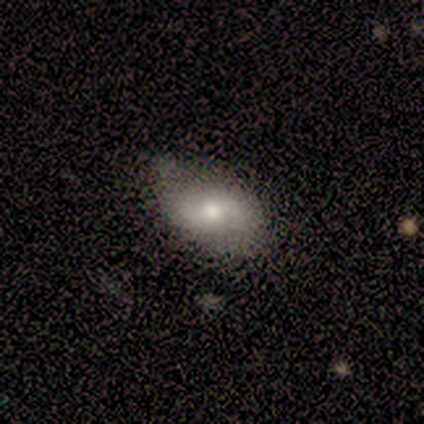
Smooth or featured?
  - featured or disk: 57% *
  - smooth: 43%
  - star or artifact: 0%
Edge-on disk?
  - no: 75% *
  - yes: 25%
Bar?
  - no: 100% *
  - strong: 0%
  - weak: 0%
Spiral arms?
  - yes: 67% *
  - no: 33%
Spiral winding?
  - medium: 50% * (tied)
  - loose: 50% * (tied)
  - tight: 0%
Spiral arm count?
  - 2: 100% *
  - 1: 0%
  - 3: 0%
  - 4: 0%
  - more than 4: 0%
  - can't tell: 0%
Bulge size?
  - moderate: 67% *
  - small: 33%
  - dominant: 0%
  - large: 0%
  - none: 0%
Merging?
  - none: 57% *
  - minor disturbance: 29%
  - merger: 14%
  - major disturbance: 0%